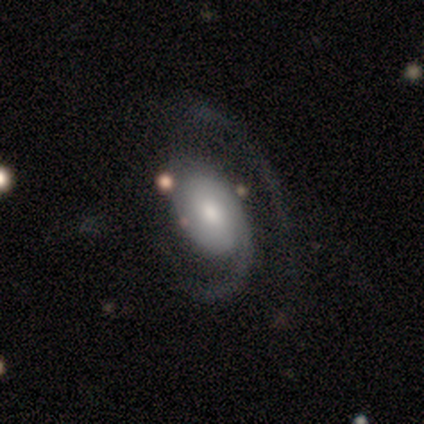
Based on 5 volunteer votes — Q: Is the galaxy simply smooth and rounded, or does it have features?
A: featured or disk — 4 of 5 (80%).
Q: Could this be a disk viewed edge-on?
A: no — 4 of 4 (100%).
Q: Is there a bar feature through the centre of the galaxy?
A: weak — 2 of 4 (50%, tied with no).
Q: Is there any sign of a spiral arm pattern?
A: yes — 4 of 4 (100%).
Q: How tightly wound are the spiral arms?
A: medium — 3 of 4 (75%).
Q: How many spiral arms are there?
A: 2 — 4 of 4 (100%).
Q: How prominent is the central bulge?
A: moderate — 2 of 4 (50%, tied with small).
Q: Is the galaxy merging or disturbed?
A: none — 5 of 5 (100%).